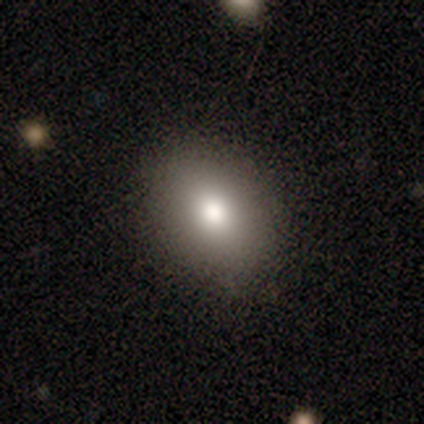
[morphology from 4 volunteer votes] A smooth galaxy with no disk features (75%) that is in between round and cigar-shaped (100%). Merging: none (100%).